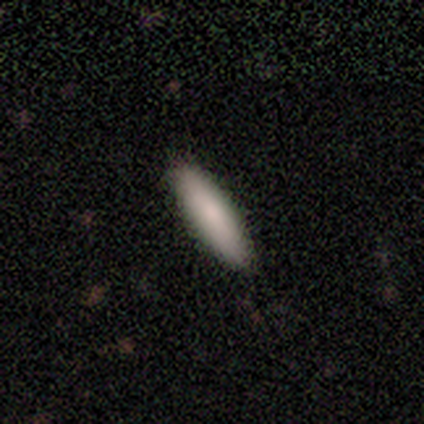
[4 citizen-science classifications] This appears to be a smooth galaxy with no disk features (75%) that is cigar-shaped (67%). Merging: none (75%).